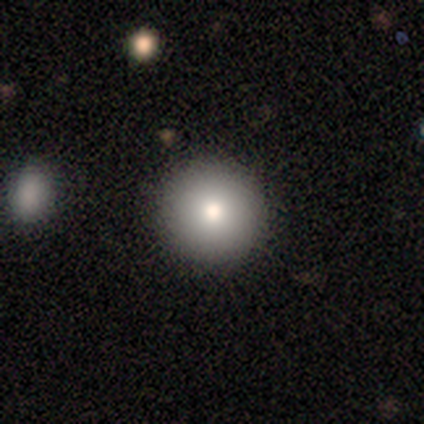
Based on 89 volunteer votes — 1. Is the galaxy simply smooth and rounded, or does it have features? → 75% smooth, 15% featured or disk, 10% star or artifact.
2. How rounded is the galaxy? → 99% round, 1% in between, 0% cigar-shaped.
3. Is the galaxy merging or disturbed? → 91% none, 8% minor disturbance, 1% major disturbance, 0% merger.